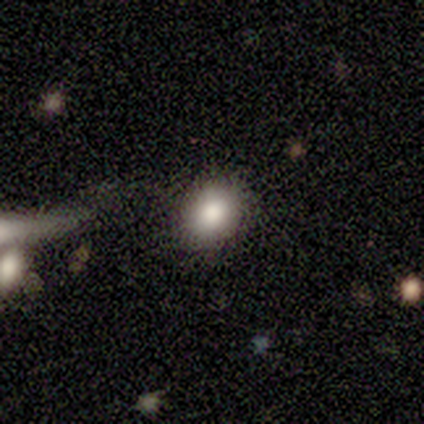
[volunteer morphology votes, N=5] Overall: smooth (60%; featured or disk 20%). How rounded: round (67%; in between 33%). Merging: none (100%).